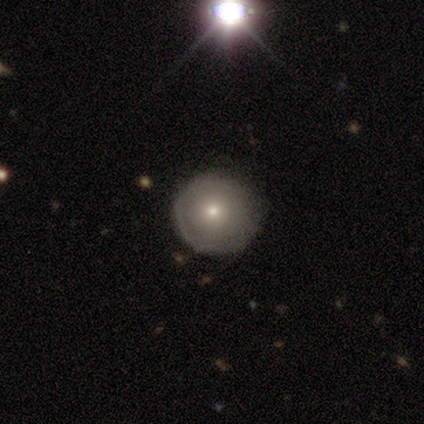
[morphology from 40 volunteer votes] Smooth or featured? smooth (57%)
How rounded? round (100%)
Merging? none (86%)